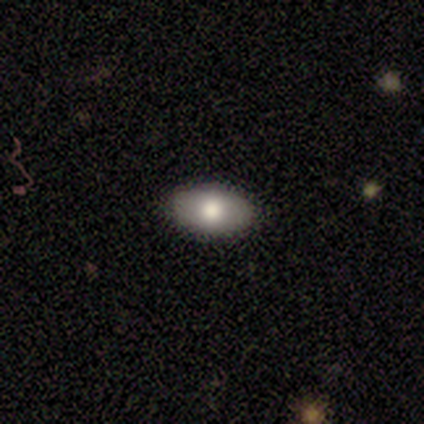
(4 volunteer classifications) Smooth or featured?
  - smooth: 75% *
  - featured or disk: 25%
  - star or artifact: 0%
How rounded?
  - in between: 100% *
  - round: 0%
  - cigar-shaped: 0%
Merging?
  - none: 100% *
  - minor disturbance: 0%
  - major disturbance: 0%
  - merger: 0%